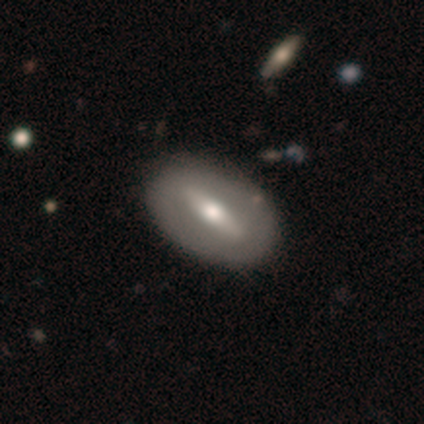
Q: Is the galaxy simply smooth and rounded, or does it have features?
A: featured or disk — 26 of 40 (65%).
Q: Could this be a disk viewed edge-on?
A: no — 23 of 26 (88%).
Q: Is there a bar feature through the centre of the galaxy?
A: strong — 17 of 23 (74%).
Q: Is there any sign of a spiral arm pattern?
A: no — 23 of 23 (100%).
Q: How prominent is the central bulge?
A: moderate — 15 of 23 (65%).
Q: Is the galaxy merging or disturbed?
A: none — 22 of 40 (55%).